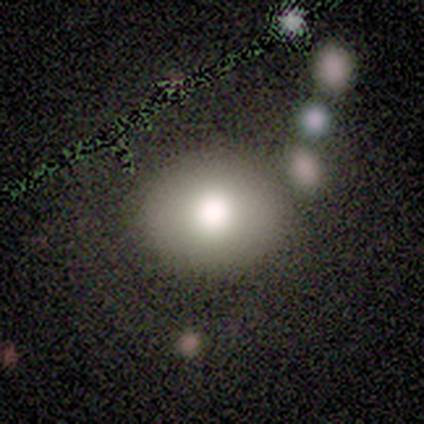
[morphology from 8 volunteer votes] Volunteers were most divided on "smooth or featured": smooth: 62%, featured or disk: 25%, star or artifact: 12%. More confident: merging — none (100%); how rounded — round (80%).